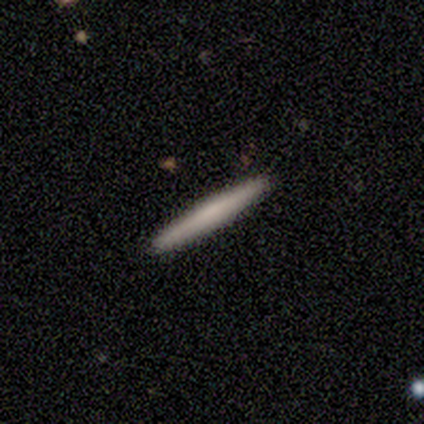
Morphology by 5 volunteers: smooth_or_featured: smooth (p=0.60) [alt: featured or disk p=0.40]
how_rounded: cigar-shaped (p=1.00)
merging: none (p=1.00)